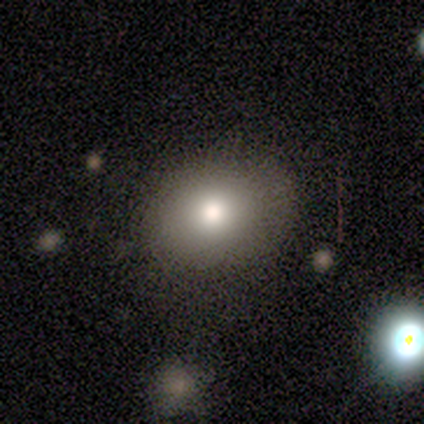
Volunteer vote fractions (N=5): Smooth or featured? smooth (80%)
How rounded? round (50%, tied with in between)
Merging? none (100%)